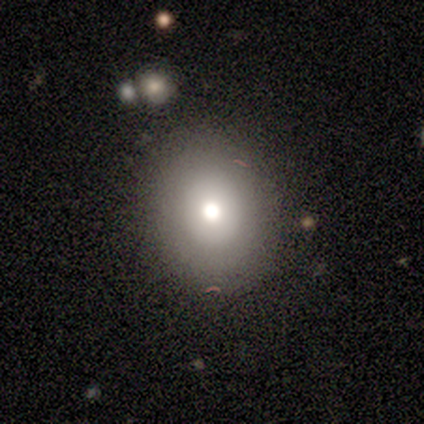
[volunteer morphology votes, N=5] Smooth or featured? featured or disk (40%, tied with star or artifact)
Edge-on disk? no (100%)
Bar? no (100%)
Spiral arms? no (100%)
Bulge size? moderate (100%)
Merging? none (100%)